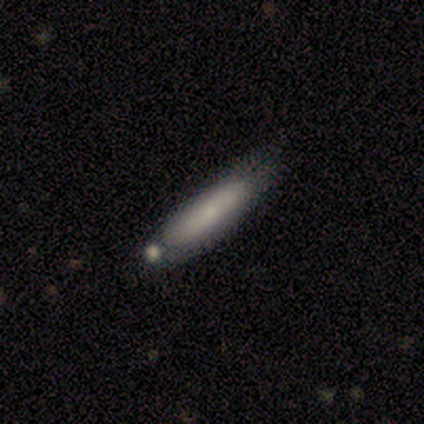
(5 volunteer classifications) smooth_or_featured: smooth (p=1.00)
how_rounded: cigar-shaped (p=0.60) [alt: in between p=0.40]
merging: none (p=0.80) [alt: merger p=0.20]